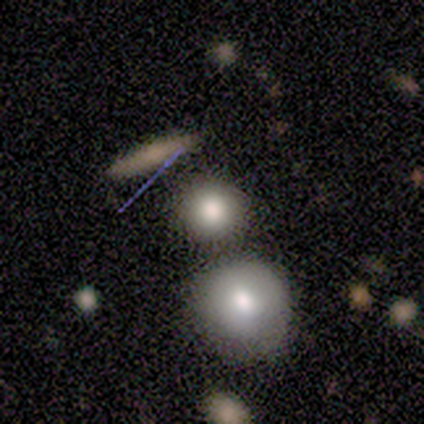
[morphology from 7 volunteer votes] smooth_or_featured: smooth (p=0.86) [alt: featured or disk p=0.14]
how_rounded: round (p=0.83) [alt: in between p=0.17]
merging: none (p=0.71) [alt: merger p=0.29]